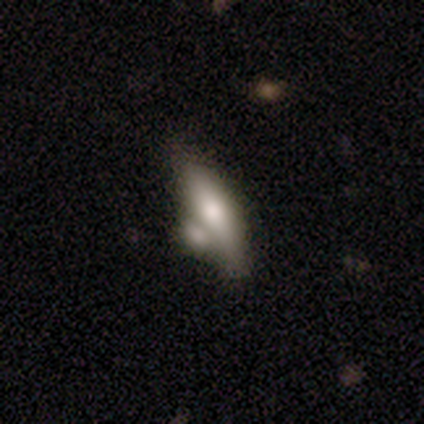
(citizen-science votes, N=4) Q: Smooth or featured?
A: featured or disk (75%); runner-up: smooth (25%)
Q: Edge-on disk?
A: yes (100%)
Q: Edge-on bulge?
A: rounded (100%)
Q: Merging?
A: merger (75%); runner-up: none (25%)